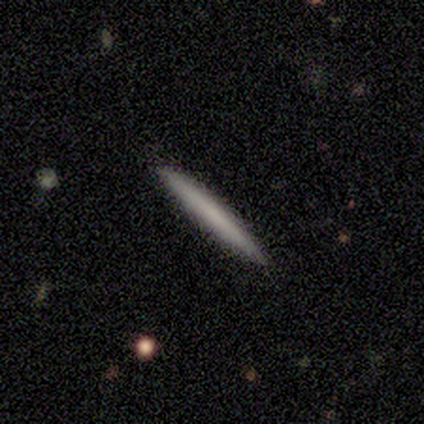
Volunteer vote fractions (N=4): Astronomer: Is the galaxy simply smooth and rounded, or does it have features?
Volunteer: smooth — 75%.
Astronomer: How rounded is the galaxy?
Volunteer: cigar-shaped — 100%.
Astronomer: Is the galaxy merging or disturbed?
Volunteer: none — 100%.